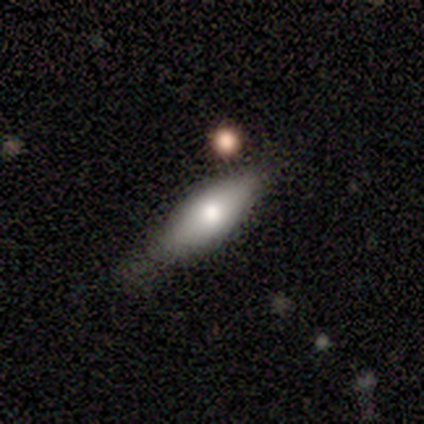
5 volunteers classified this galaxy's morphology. smooth_or_featured: smooth (p=0.60) [alt: featured or disk p=0.40]
how_rounded: in between (p=0.67) [alt: cigar-shaped p=0.33]
merging: none (p=0.40) [tied with: major disturbance p=0.40]